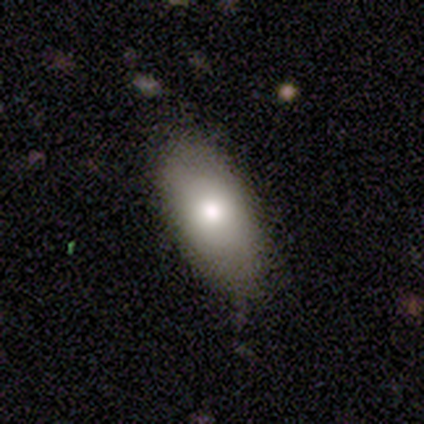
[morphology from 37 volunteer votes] Smooth or featured? 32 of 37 (86%) said smooth. How rounded? 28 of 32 (88%) said in between. Merging? 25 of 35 (71%) said none.